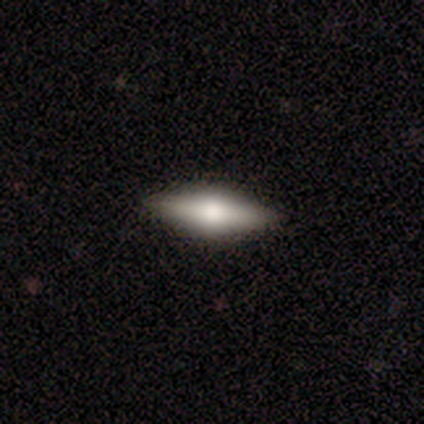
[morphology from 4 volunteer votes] Volunteers were most divided on "smooth or featured" (2-way tie): smooth: 50%, featured or disk: 50%, star or artifact: 0%. More confident: how rounded — in between (100%); merging — none (100%).